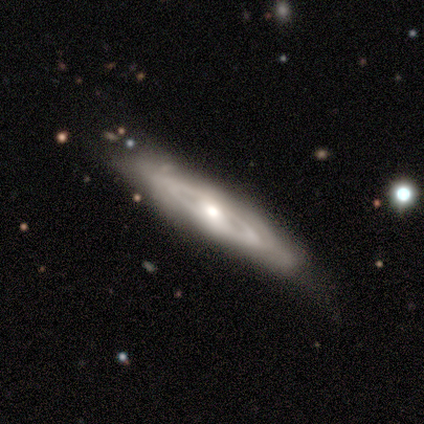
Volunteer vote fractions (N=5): Volunteers were most divided on "smooth or featured" (2-way tie): featured or disk: 40%, star or artifact: 40%, smooth: 20%; "bulge size" (2-way tie): moderate: 50%, small: 50%, dominant: 0%, large: 0%, none: 0%. More confident: edge-on disk — no (100%); bar — no (100%); spiral arms — no (100%); merging — none (67%).